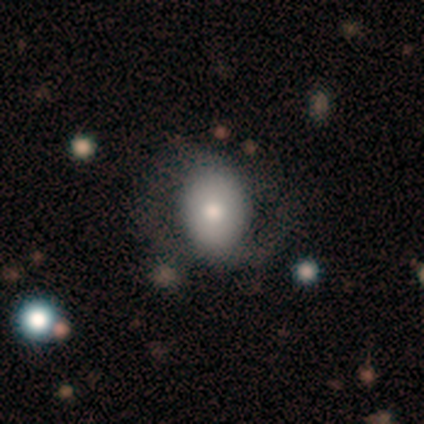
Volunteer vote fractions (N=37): This is possibly a featured or disk galaxy (49%). It is clearly not viewed edge-on (89%). Bar: likely no (62%). Spiral arm pattern: possibly no (56%). Central bulge: possibly moderate (56%). Merging: possibly none (54%).